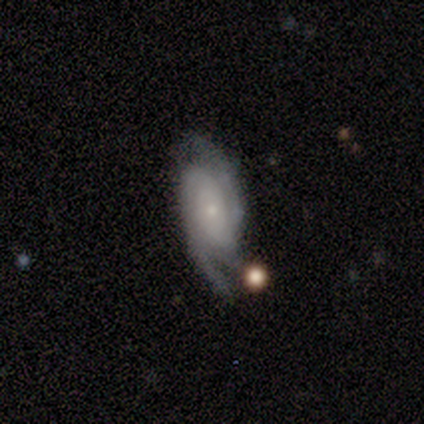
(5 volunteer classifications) featured or disk 80%, smooth 20%, star or artifact 0%. Down the decision tree: edge-on disk — no (100%); bar — no (75%); spiral arms — yes (100%); spiral arm count — 2 (75%); spiral winding — tight (100%); bulge size — small (100%); merging — none (40%, tied with minor disturbance).